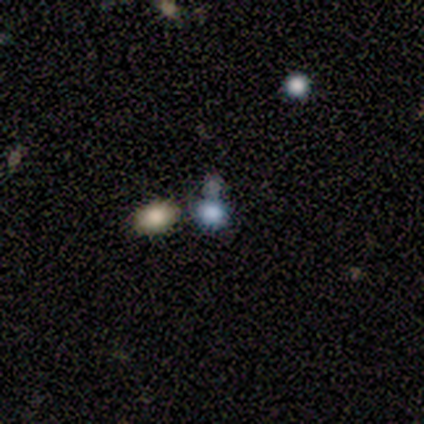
Morphology: type=smooth (75%); roundness=round (67%); merging=merger (50%).